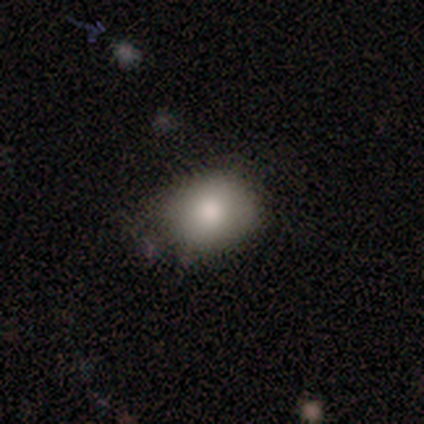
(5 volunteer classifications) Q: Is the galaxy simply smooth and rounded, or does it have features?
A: smooth — 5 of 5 (100%).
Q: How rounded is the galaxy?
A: round — 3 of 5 (60%).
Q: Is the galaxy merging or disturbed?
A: none — 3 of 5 (60%).